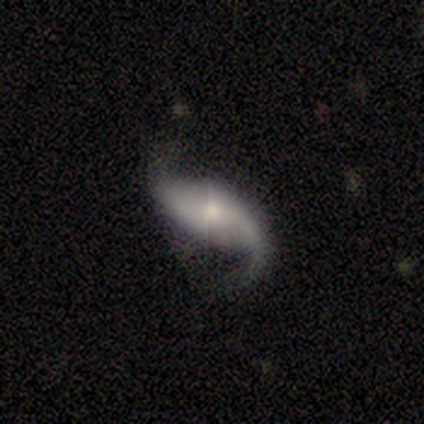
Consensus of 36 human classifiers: This appears to be a featured or disk galaxy (86%) with no bar (55%), 2 (90%) loose (94%) spiral arms (100%) and a small central bulge (39%). Merging: none (84%).